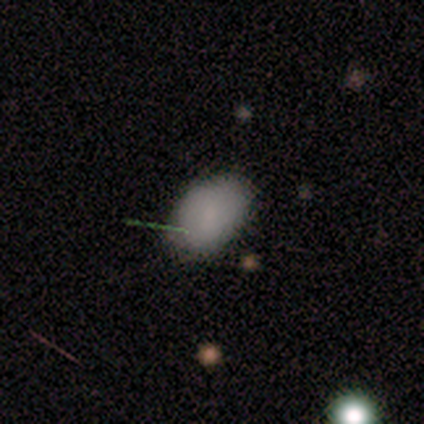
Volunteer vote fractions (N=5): A smooth galaxy with no disk features (100%) that is in between round and cigar-shaped (80%). Merging: none (100%).